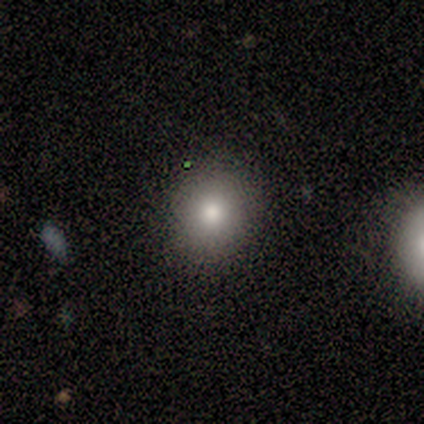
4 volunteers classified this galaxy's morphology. Smooth or featured?
  - smooth: 100% *
  - featured or disk: 0%
  - star or artifact: 0%
How rounded?
  - round: 75% *
  - in between: 25%
  - cigar-shaped: 0%
Merging?
  - none: 75% *
  - minor disturbance: 25%
  - major disturbance: 0%
  - merger: 0%